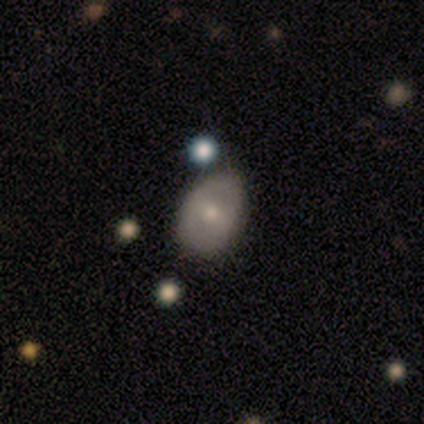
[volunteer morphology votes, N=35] A smooth galaxy with no disk features (51%) that is in between round and cigar-shaped (94%). Merging: none (62%).